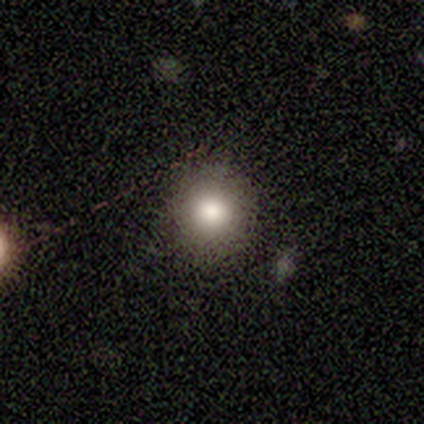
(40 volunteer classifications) Q: Smooth or featured?
A: smooth (82%); runner-up: star or artifact (15%)
Q: How rounded?
A: round (88%); runner-up: in between (12%)
Q: Merging?
A: none (91%); runner-up: minor disturbance (9%)